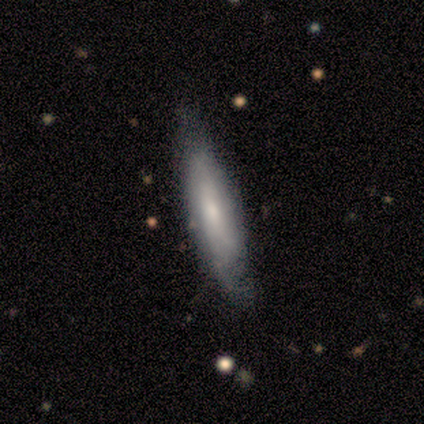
smooth_or_featured: smooth (p=0.75) [alt: star or artifact p=0.25]
how_rounded: in between (p=0.67) [alt: cigar-shaped p=0.33]
merging: none (p=0.67) [alt: minor disturbance p=0.33]